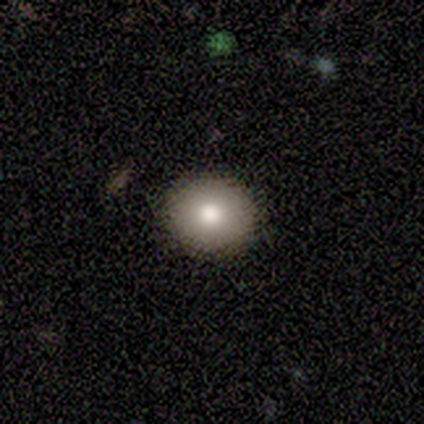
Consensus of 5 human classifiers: Smooth or featured? 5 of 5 (100%) said smooth. How rounded? 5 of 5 (100%) said round. Merging? 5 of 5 (100%) said none.